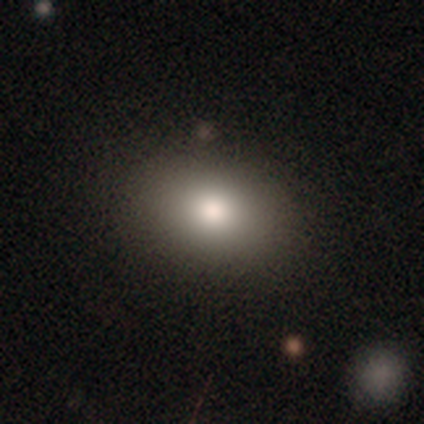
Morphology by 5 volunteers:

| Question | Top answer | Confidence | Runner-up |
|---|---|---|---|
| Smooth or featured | smooth | 100% | — |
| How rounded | in between | 80% | round (20%) |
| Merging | none | 80% | minor disturbance (20%) |